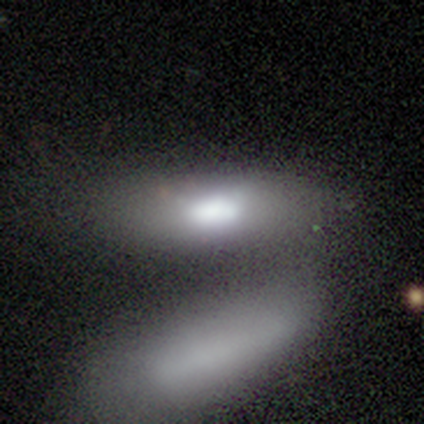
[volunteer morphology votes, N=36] This appears to be a smooth galaxy with no disk features (75%) that is in between round and cigar-shaped (52%). Merging: merger (50%).